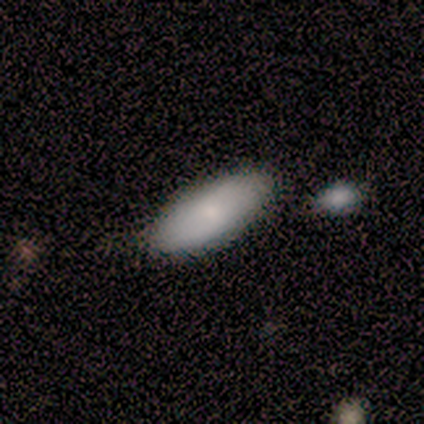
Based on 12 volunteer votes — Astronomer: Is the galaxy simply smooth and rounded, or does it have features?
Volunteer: smooth — 83%.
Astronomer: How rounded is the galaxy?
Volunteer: in between — 90%.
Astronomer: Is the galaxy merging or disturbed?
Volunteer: none — 83%.